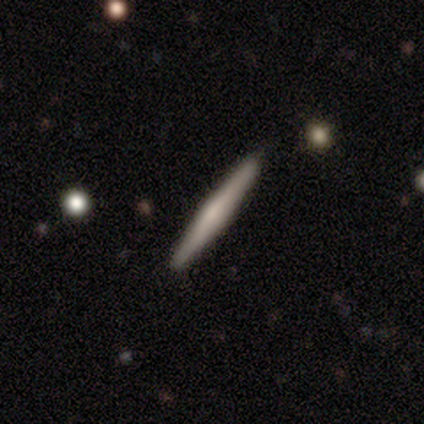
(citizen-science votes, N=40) This appears to be a featured or disk galaxy (62%) viewed edge-on (96%) with a rounded central bulge (58%). Merging: none (85%).